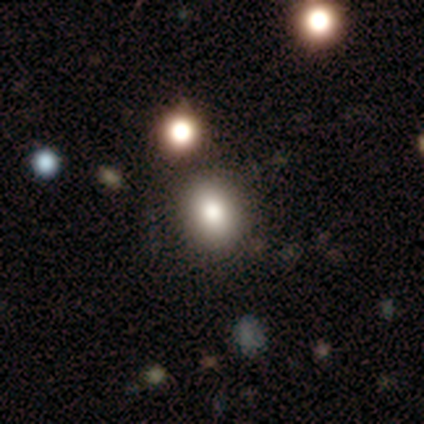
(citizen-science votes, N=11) This is clearly a smooth galaxy (91%). How rounded: possibly round (50%, tied with in between). Merging: clearly none (82%).